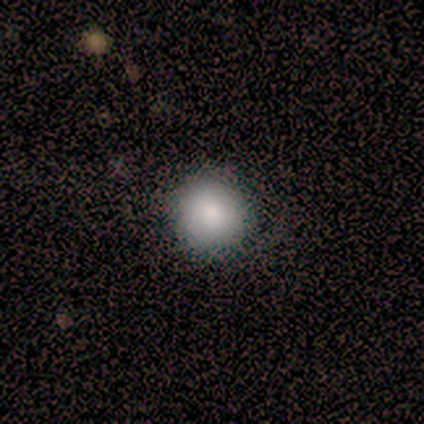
This appears to be a smooth galaxy with no disk features (100%) that is round (100%). Merging: none (100%).